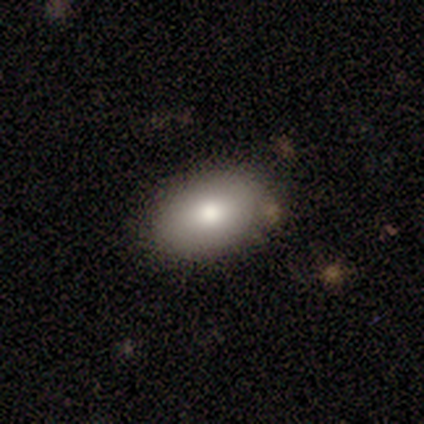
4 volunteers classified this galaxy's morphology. Smooth or featured? smooth (75%)
How rounded? in between (100%)
Merging? none (50%, tied with minor disturbance)